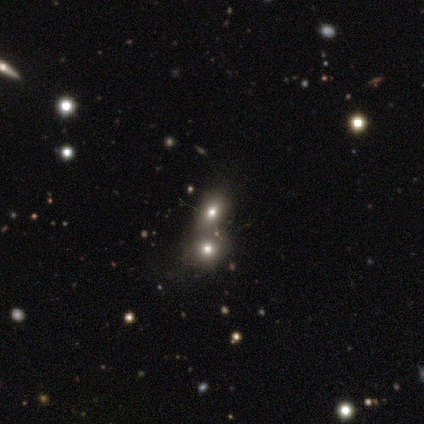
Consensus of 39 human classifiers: This appears to be a smooth galaxy with no disk features (59%) that is round (61%). Merging: merger (63%).